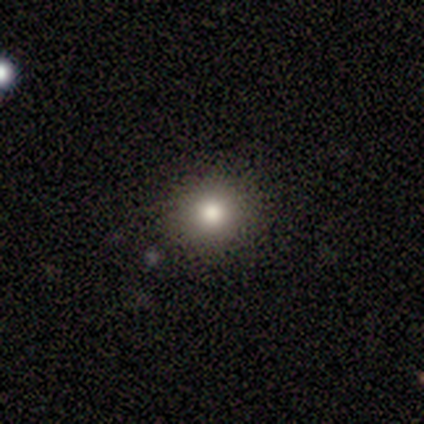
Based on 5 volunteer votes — Overall: smooth (60%; featured or disk 20%). How rounded: round (100%). Merging: none (100%).